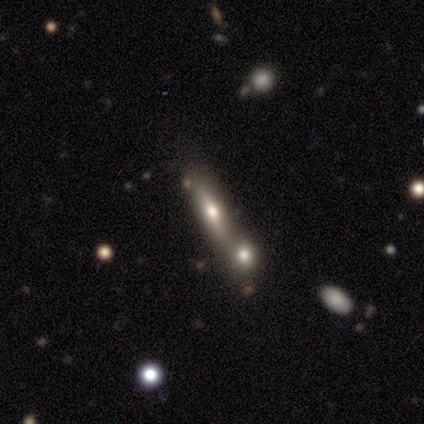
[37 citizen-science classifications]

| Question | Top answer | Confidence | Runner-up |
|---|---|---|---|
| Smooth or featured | smooth | 46% | featured or disk (41%) |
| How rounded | cigar-shaped | 76% | in between (24%) |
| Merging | merger | 50% | none (38%) |